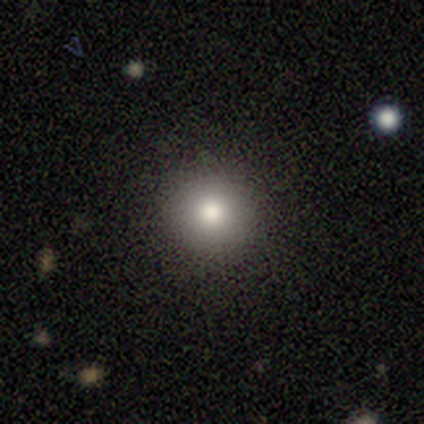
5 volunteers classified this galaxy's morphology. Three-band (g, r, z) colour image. It shows a smooth galaxy with no disk features (100%) that is round (100%). Merging: none (80%).